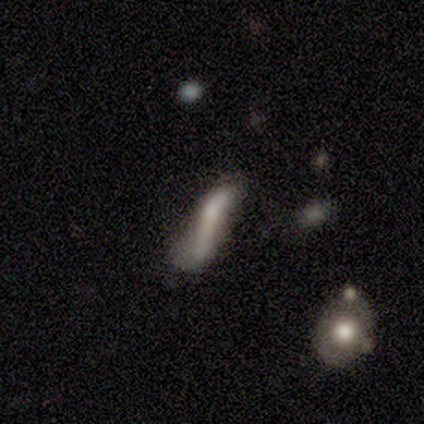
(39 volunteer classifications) Overall: featured or disk (51%; smooth 46%). Edge-on disk: no (65%; yes 35%). Bar: no (62%; weak 23%). Spiral arms: no (85%). Bulge size: none (46%; small 31%). Merging: major disturbance (37%; minor disturbance 16%).